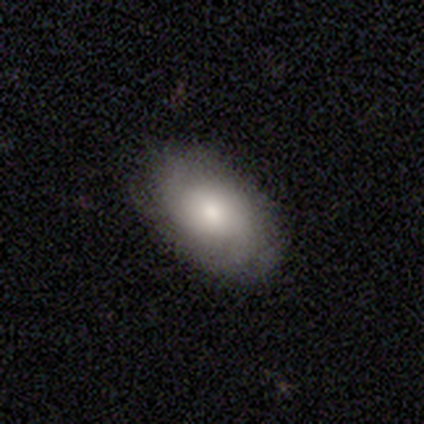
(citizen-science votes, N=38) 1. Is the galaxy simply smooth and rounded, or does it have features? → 63% smooth, 29% featured or disk, 8% star or artifact.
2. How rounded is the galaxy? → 79% in between, 17% round, 4% cigar-shaped.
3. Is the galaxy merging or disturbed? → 74% none, 14% minor disturbance, 9% major disturbance, 3% merger.